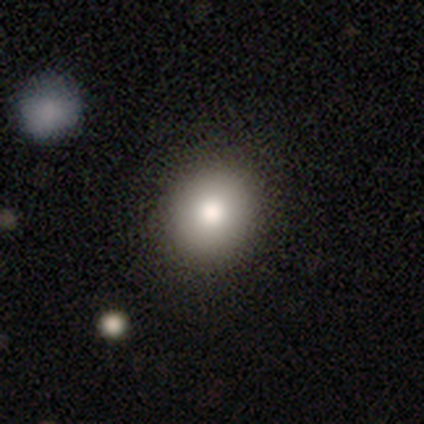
Smooth or featured? smooth (85%)
How rounded? round (88%)
Merging? none (68%)